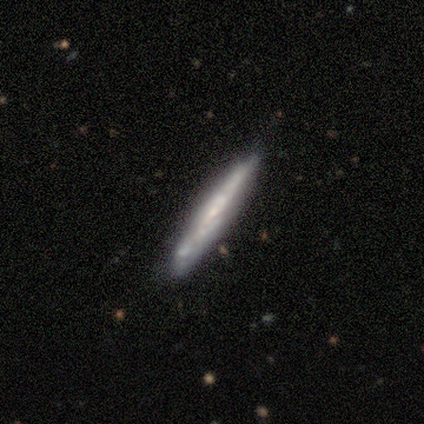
A featured or disk galaxy (68%) viewed edge-on (84%) with no central bulge (71%).

Vote fractions:
- Smooth or featured? featured or disk: 68% / smooth: 30% / star or artifact: 3%
- Edge-on disk? yes: 84% / no: 16%
- Edge-on bulge? none: 71% / rounded: 24% / boxy: 5%
- Merging? none: 81% / minor disturbance: 14% / major disturbance: 3% / merger: 3%